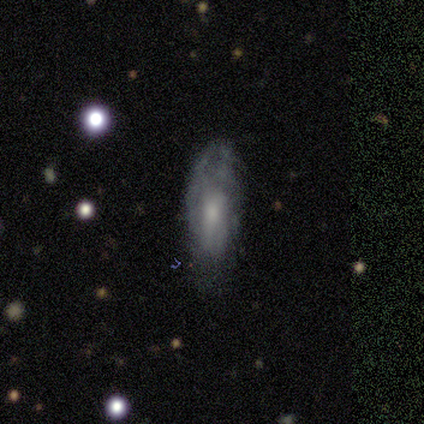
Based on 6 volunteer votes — A smooth galaxy with no disk features (50%, tied with featured or disk) that is in between round and cigar-shaped (67%). Merging: none (83%).